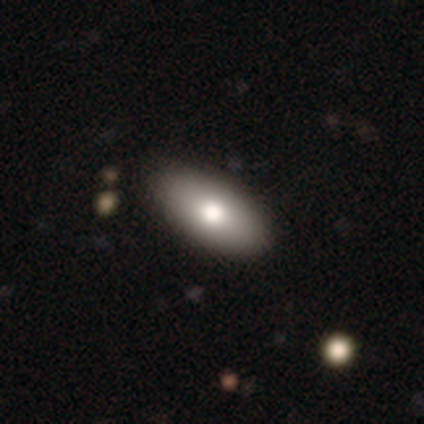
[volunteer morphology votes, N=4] smooth 50% (tied), featured or disk 50% (tied), star or artifact 0%. Down the decision tree: how rounded — in between (100%); merging — none (100%).